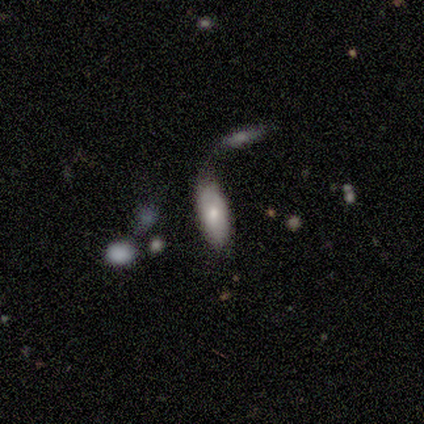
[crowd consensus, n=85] Overall: smooth (71%). How rounded: in between (72%). Merging: none (40%; merger 35%).